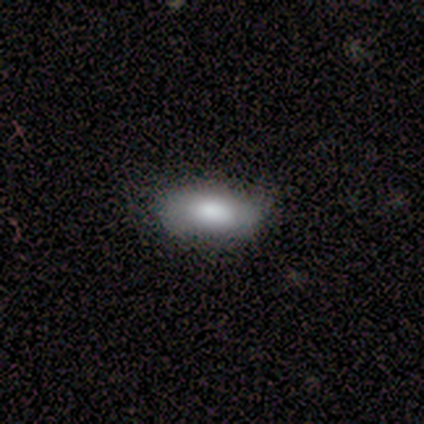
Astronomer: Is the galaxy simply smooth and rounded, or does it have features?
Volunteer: smooth — 82%.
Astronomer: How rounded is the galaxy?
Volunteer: in between — 84%.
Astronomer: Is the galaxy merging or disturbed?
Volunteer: none — 85%.